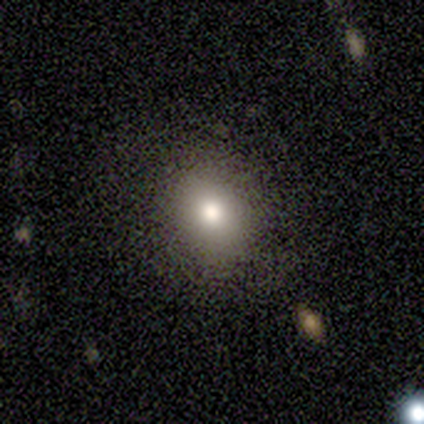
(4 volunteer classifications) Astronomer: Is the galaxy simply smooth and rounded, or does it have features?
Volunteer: smooth — 100%.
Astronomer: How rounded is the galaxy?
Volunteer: round — 75%.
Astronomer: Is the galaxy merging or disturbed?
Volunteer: minor disturbance — 50%.